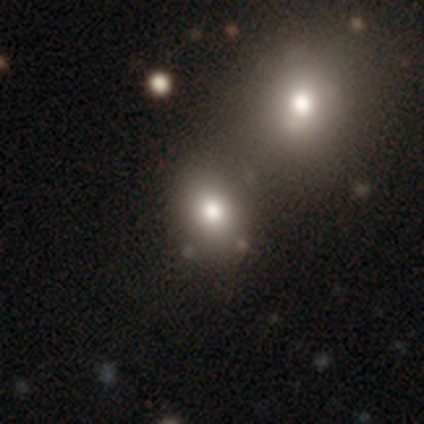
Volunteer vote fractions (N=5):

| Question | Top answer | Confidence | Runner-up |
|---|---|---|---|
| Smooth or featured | star or artifact | 60% | smooth (40%) |